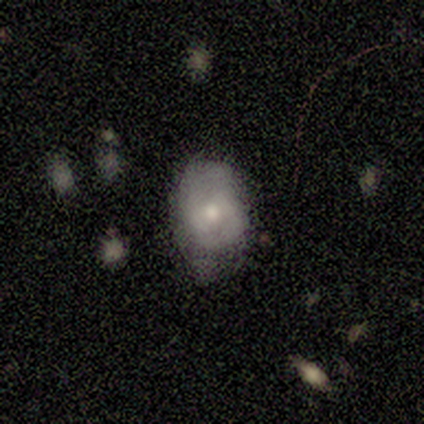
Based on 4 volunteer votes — Q: Smooth or featured?
A: smooth (75%); runner-up: featured or disk (25%)
Q: How rounded?
A: in between (100%)
Q: Merging?
A: none (50%); tied with: minor disturbance (50%)